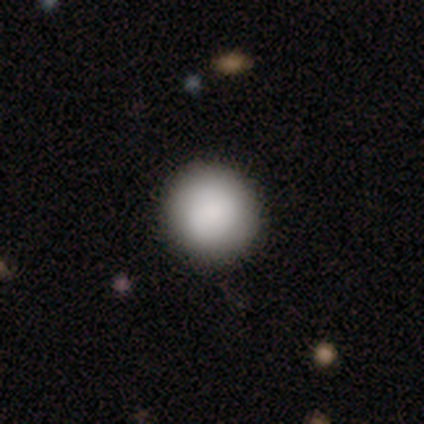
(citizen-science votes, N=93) This appears to be a smooth galaxy with no disk features (95%) that is round (98%). Merging: none (91%).